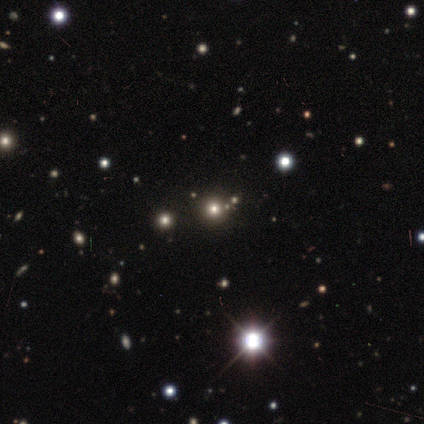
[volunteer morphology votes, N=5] This is clearly a star or artifact rather than a galaxy (100%).